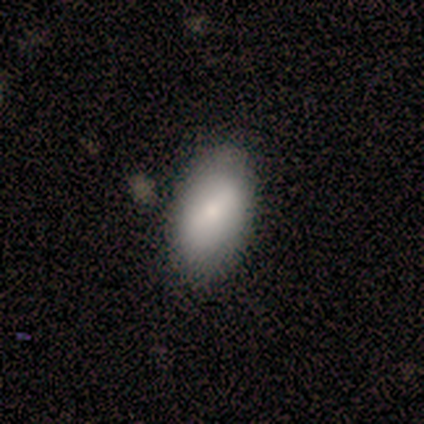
smooth_or_featured: smooth (p=0.64) [alt: featured or disk p=0.21]
how_rounded: in between (p=1.00)
merging: none (p=0.83) [alt: minor disturbance p=0.17]